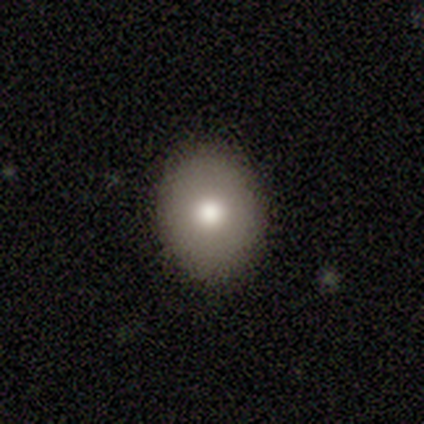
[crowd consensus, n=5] Smooth or featured: smooth — 80% (star or artifact — 20%)
How rounded: in between — 100%
Merging: none — 100%